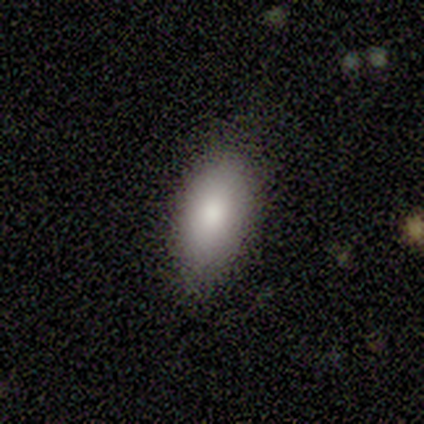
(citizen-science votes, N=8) smooth 88%, featured or disk 12%, star or artifact 0%. Down the decision tree: how rounded — in between (100%); merging — none (100%).